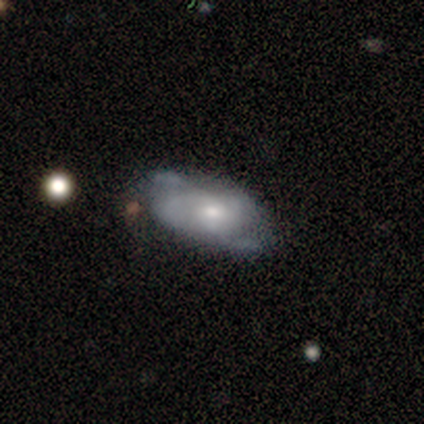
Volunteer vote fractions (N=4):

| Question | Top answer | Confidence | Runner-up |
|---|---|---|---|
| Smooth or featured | featured or disk | 100% | — |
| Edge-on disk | no | 100% | — |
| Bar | no | 75% | weak (25%) |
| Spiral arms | yes | 75% | no (25%) |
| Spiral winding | tight | 67% | loose (33%) |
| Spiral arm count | can't tell | 67% | 4 (33%) |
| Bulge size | small | 75% | moderate (25%) |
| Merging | none | 100% | — |